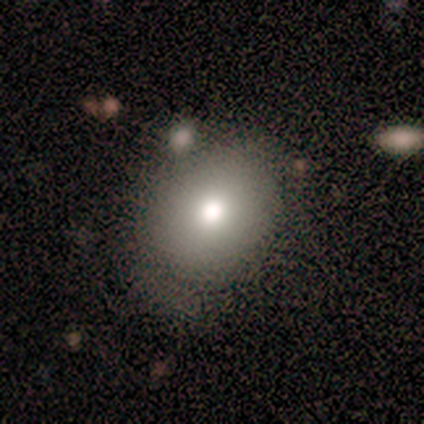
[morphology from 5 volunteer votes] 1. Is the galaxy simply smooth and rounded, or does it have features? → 60% smooth, 40% star or artifact, 0% featured or disk.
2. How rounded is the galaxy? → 67% round, 33% in between, 0% cigar-shaped.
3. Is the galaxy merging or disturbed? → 67% none, 33% minor disturbance, 0% major disturbance, 0% merger.